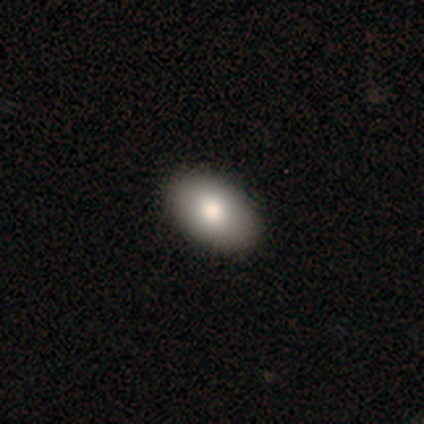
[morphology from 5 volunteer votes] smooth 80%, featured or disk 20%, star or artifact 0%. Down the decision tree: how rounded — in between (100%); merging — none (100%).